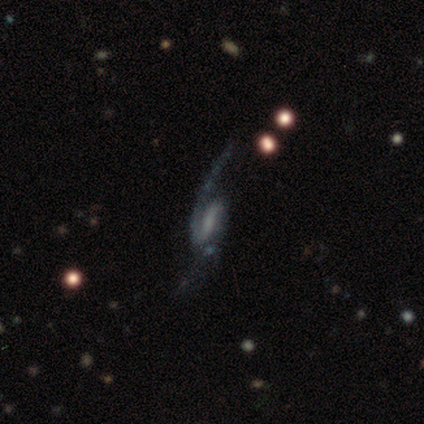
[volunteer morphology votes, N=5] This appears to be a featured or disk galaxy (80%) with a weak bar (75%), 2 (75%) loose (75%) spiral arms (100%) and no central bulge (75%). Merging: none (60%).